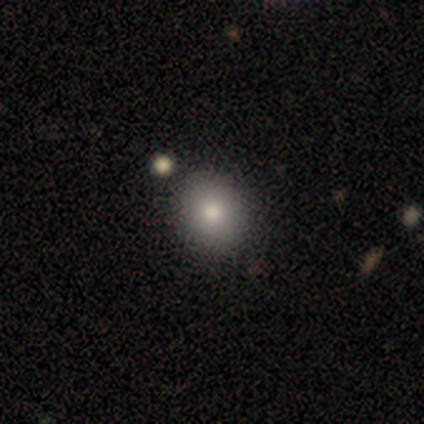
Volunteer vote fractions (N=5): Smooth or featured?
  - smooth: 100% *
  - featured or disk: 0%
  - star or artifact: 0%
How rounded?
  - round: 60% *
  - in between: 20%
  - cigar-shaped: 20%
Merging?
  - none: 100% *
  - minor disturbance: 0%
  - major disturbance: 0%
  - merger: 0%